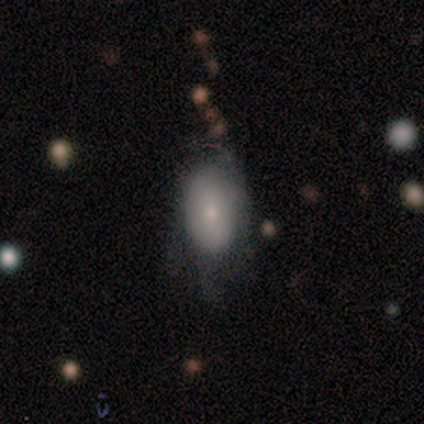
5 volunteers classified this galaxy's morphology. Smooth or featured: smooth — 80% (featured or disk — 20%)
How rounded: in between — 100%
Merging: minor disturbance — 40% (tied with major disturbance — 40%)